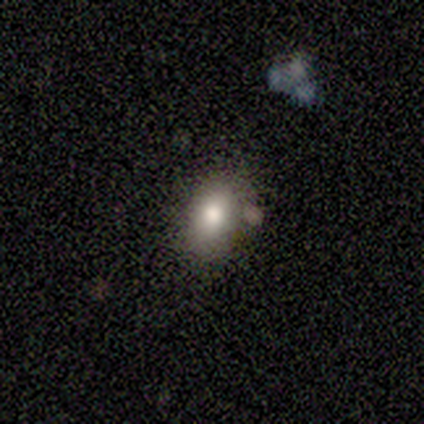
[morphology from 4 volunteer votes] type=smooth (75%); roundness=in between (67%); merging=none (100%).